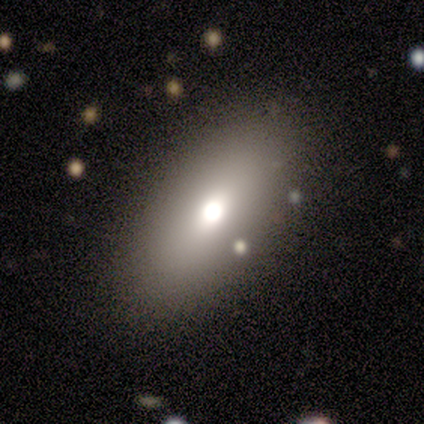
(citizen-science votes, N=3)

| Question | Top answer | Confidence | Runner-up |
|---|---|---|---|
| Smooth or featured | smooth | 100% | — |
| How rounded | round | 67% | in between (33%) |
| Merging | none | 67% | minor disturbance (33%) |